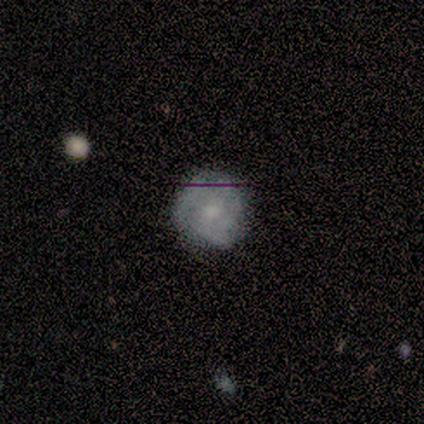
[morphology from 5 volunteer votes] This is likely a smooth galaxy (60%). How rounded: likely round (67%). Merging: clearly none (100%).